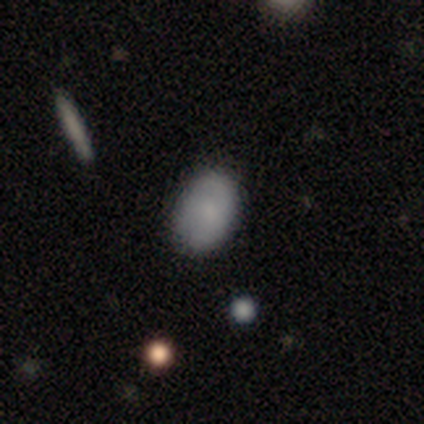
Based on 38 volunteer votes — Volunteers were most divided on "smooth or featured": smooth: 61%, featured or disk: 29%, star or artifact: 11%. More confident: how rounded — in between (87%); merging — none (82%).